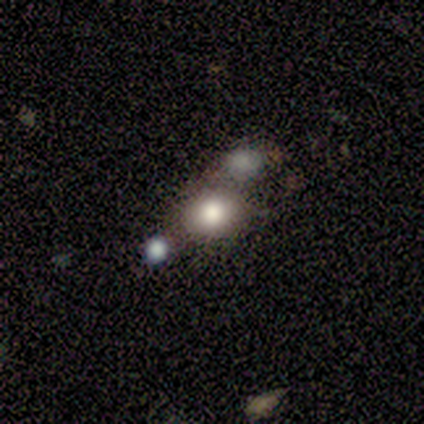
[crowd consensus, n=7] A smooth galaxy with no disk features (71%) that is round (60%).

Vote fractions:
- Smooth or featured? smooth: 71% / star or artifact: 29% / featured or disk: 0%
- How rounded? round: 60% / in between: 40% / cigar-shaped: 0%
- Merging? none: 40% (tied) / merger: 40% (tied) / minor disturbance: 20% / major disturbance: 0%